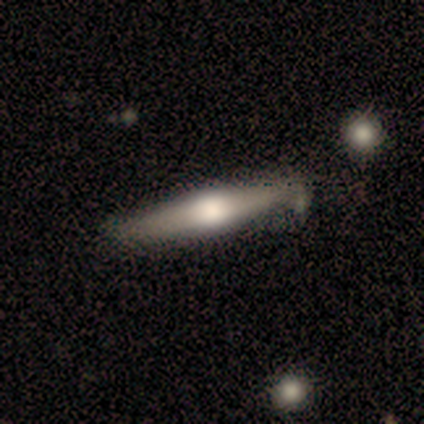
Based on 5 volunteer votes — smooth-or-featured: featured or disk: 80% | smooth: 20% | star or artifact: 0%
  disk-edge-on: yes: 75% | no: 25%
    edge-on-bulge: rounded: 67% | boxy: 33% | none: 0%
  merging: none: 80% | merger: 20% | minor disturbance: 0% | major disturbance: 0%